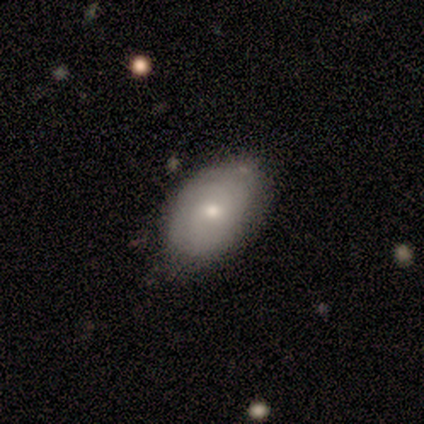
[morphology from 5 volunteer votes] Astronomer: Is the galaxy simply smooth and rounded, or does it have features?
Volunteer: smooth — 80%.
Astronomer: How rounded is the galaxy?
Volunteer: in between — 75%.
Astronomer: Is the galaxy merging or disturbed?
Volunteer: none — 80%.